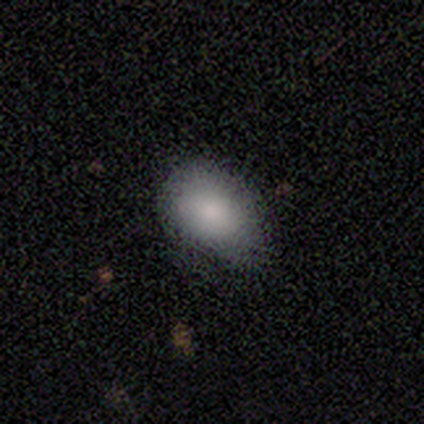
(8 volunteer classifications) This appears to be a smooth galaxy with no disk features (100%) that is in between round and cigar-shaped (88%). Merging: minor disturbance (62%).